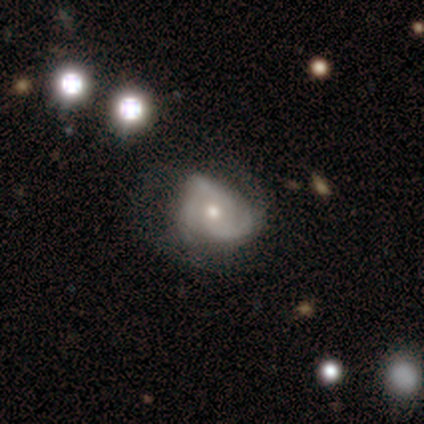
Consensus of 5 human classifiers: Morphology: type=featured or disk (100%); edge-on=no (100%); bar=no (80%); spiral arms=yes (100%); winding=medium (60%); arm count=3 (80%); bulge=moderate (100%); merging=none (60%).